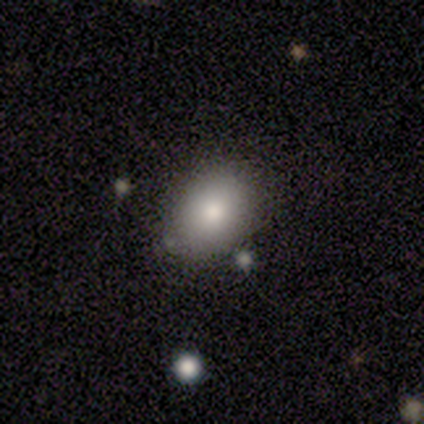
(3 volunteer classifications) Morphology: type=smooth (67%); roundness=in between (100%); merging=none (67%).